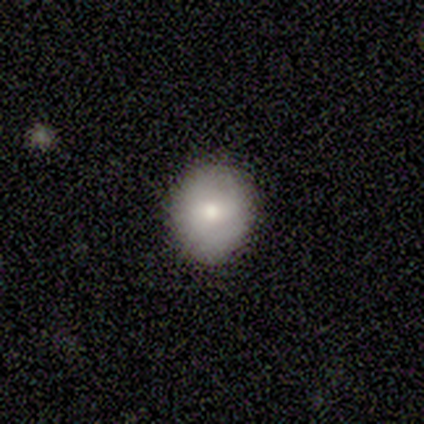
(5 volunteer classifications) A smooth galaxy with no disk features (40%, tied with featured or disk) that is round (100%).

Vote fractions:
- Smooth or featured? smooth: 40% (tied) / featured or disk: 40% (tied) / star or artifact: 20%
- How rounded? round: 100% / in between: 0% / cigar-shaped: 0%
- Merging? none: 100% / minor disturbance: 0% / major disturbance: 0% / merger: 0%